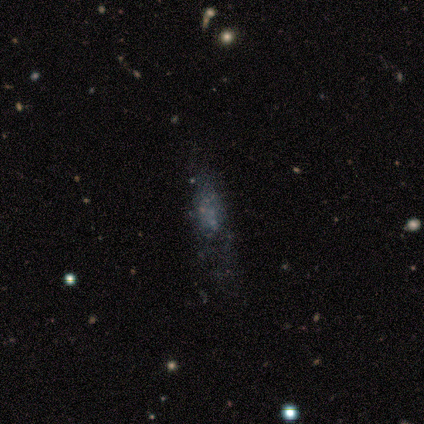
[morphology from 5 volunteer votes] Overall: featured or disk (40%, tied with star or artifact). Edge-on disk: no (100%). Bar: no (100%). Spiral arms: no (100%). Bulge size: none (100%). Merging: none (67%; minor disturbance 33%).